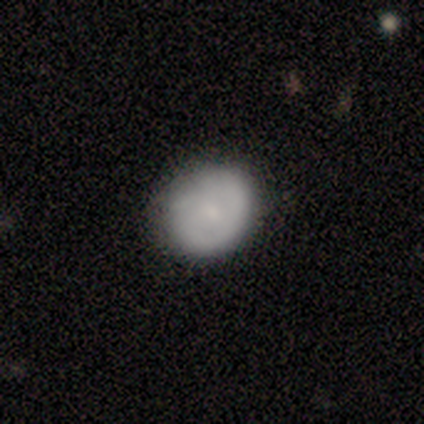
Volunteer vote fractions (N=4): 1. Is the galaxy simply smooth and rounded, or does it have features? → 75% smooth, 25% featured or disk, 0% star or artifact.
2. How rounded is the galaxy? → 100% round, 0% in between, 0% cigar-shaped.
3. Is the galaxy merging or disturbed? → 50% none (tied), 50% minor disturbance (tied), 0% major disturbance, 0% merger.